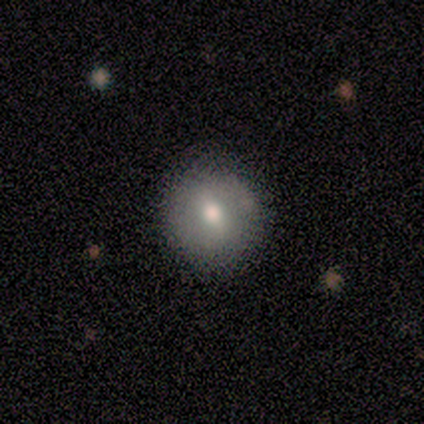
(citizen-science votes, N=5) smooth 80%, featured or disk 20%, star or artifact 0%. Down the decision tree: how rounded — round (100%); merging — none (80%).